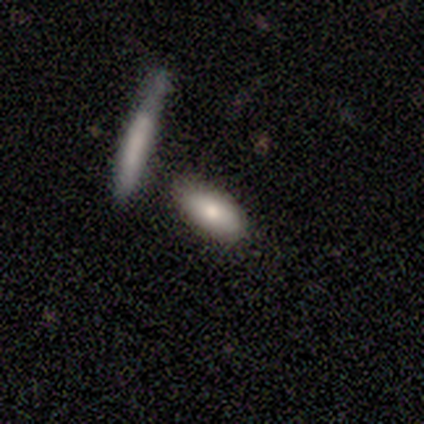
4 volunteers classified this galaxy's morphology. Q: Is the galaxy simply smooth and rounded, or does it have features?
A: smooth — 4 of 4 (100%).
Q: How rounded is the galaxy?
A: in between — 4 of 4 (100%).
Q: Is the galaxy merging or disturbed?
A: none — 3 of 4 (75%).